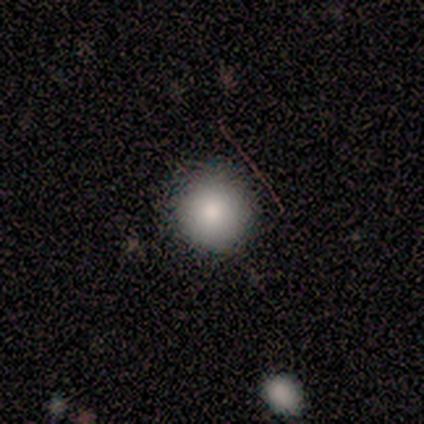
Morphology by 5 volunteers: smooth-or-featured: smooth: 80% | star or artifact: 20% | featured or disk: 0%
  how-rounded: round: 100% | in between: 0% | cigar-shaped: 0%
  merging: none: 100% | minor disturbance: 0% | major disturbance: 0% | merger: 0%